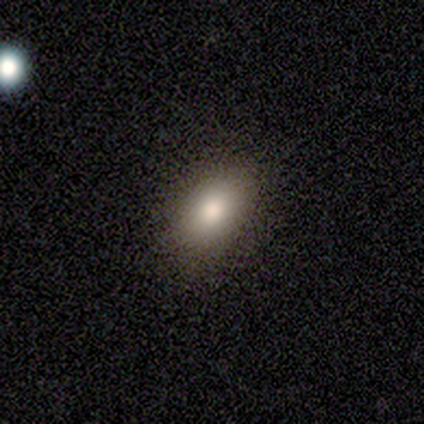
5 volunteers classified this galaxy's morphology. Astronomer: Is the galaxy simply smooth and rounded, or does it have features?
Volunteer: smooth — 60%.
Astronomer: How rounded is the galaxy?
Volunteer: in between — 100%.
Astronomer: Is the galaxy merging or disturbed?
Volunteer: none — 100%.